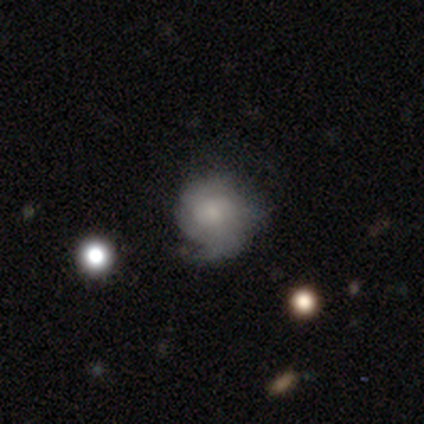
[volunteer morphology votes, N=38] Smooth or featured? featured or disk (58%)
Edge-on disk? no (100%)
Bar? no (95%)
Spiral arms? yes (77%)
Spiral winding? tight (35%, tied with medium)
Spiral arm count? 1 (41%, tied with can't tell)
Bulge size? small (59%)
Merging? none (57%)